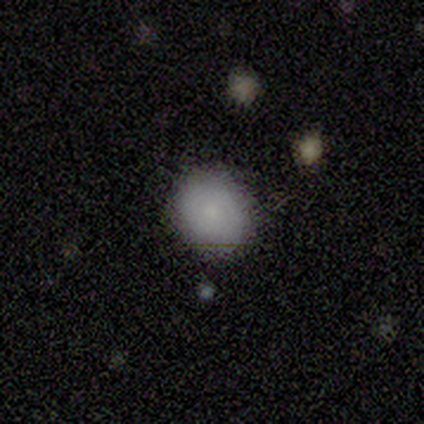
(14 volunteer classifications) Volunteers were most divided on "smooth or featured": smooth: 71%, featured or disk: 14%, star or artifact: 14%. More confident: merging — none (83%); how rounded — round (80%).